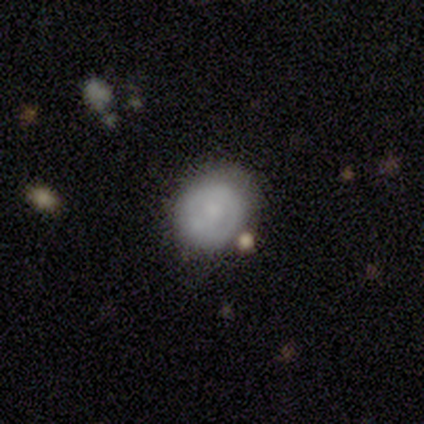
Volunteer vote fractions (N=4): Smooth or featured? featured or disk (75%)
Edge-on disk? no (100%)
Bar? weak (67%)
Spiral arms? no (67%)
Bulge size? moderate (67%)
Merging? none (75%)